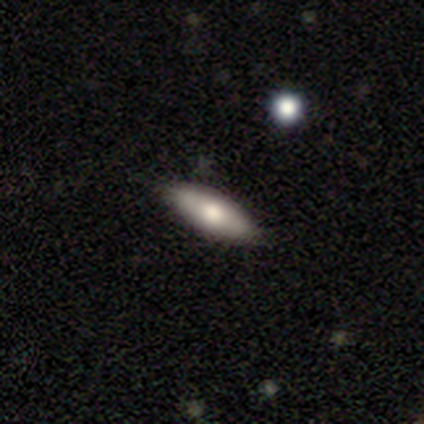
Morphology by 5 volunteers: Q: Smooth or featured?
A: smooth (60%); runner-up: featured or disk (20%)
Q: How rounded?
A: in between (100%)
Q: Merging?
A: none (75%); runner-up: minor disturbance (25%)